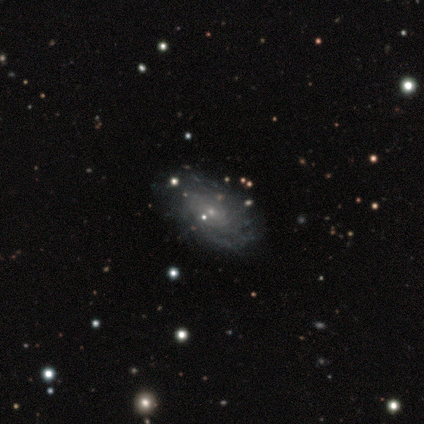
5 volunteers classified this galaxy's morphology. Overall: featured or disk (100%). Edge-on disk: no (100%). Bar: no (80%). Spiral arms: yes (80%). Spiral arm count: more than 4 (50%, tied with can't tell). Spiral winding: tight (75%). Bulge size: small (80%). Merging: none (60%; minor disturbance 20%).